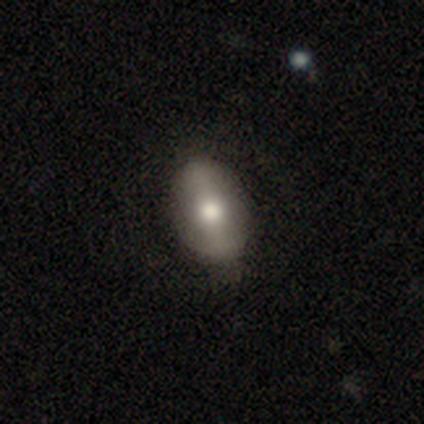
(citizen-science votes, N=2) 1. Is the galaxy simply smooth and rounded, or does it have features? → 50% featured or disk (tied), 50% star or artifact (tied), 0% smooth.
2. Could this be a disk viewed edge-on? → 100% no, 0% yes.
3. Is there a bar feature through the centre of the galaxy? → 100% strong, 0% weak, 0% no.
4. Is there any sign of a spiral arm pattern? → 100% no, 0% yes.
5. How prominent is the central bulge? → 100% large, 0% dominant, 0% moderate, 0% small, 0% none.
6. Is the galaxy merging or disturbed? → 100% none, 0% minor disturbance, 0% major disturbance, 0% merger.